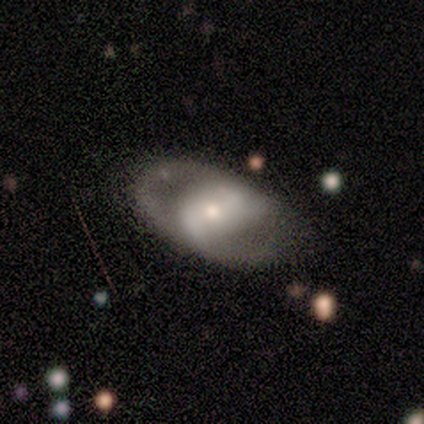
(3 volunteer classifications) smooth_or_featured: featured or disk (p=1.00)
disk_edge_on: no (p=1.00)
bar: no (p=0.67) [alt: strong p=0.33]
has_spiral_arms: yes (p=0.67) [alt: no p=0.33]
spiral_winding: tight (p=0.50) [tied with: loose p=0.50]
spiral_arm_count: 2 (p=1.00)
bulge_size: small (p=0.67) [alt: large p=0.33]
merging: none (p=0.67) [alt: minor disturbance p=0.33]